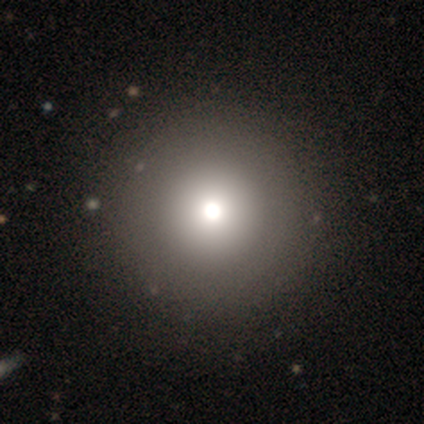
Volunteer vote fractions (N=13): A smooth galaxy with no disk features (77%) that is round (100%). Merging: none (45%).